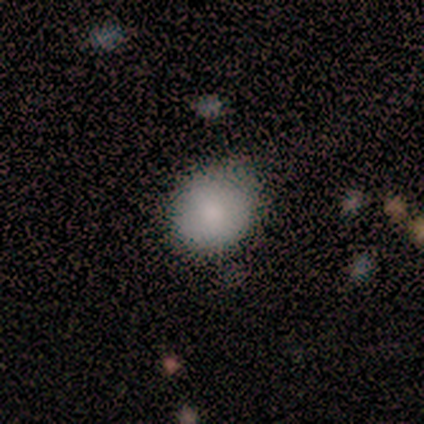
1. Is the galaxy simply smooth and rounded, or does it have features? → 75% smooth, 25% featured or disk, 0% star or artifact.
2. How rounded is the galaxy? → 67% round, 33% in between, 0% cigar-shaped.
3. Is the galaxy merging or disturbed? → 50% none (tied), 50% minor disturbance (tied), 0% major disturbance, 0% merger.